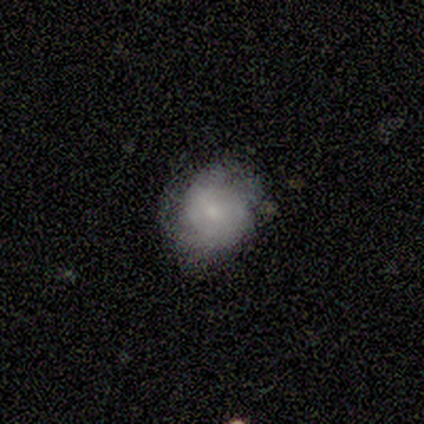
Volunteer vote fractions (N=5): Smooth or featured?
  - smooth: 60% *
  - featured or disk: 40%
  - star or artifact: 0%
How rounded?
  - round: 67% *
  - in between: 33%
  - cigar-shaped: 0%
Merging?
  - none: 60% *
  - minor disturbance: 20%
  - major disturbance: 20%
  - merger: 0%